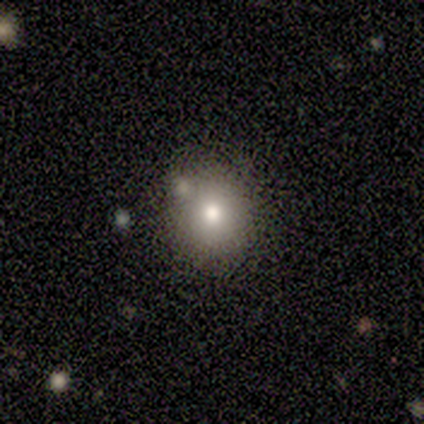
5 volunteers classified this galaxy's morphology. A smooth galaxy with no disk features (100%) that is round (80%).

Vote fractions:
- Smooth or featured? smooth: 100% / featured or disk: 0% / star or artifact: 0%
- How rounded? round: 80% / in between: 20% / cigar-shaped: 0%
- Merging? none: 60% / minor disturbance: 20% / merger: 20% / major disturbance: 0%